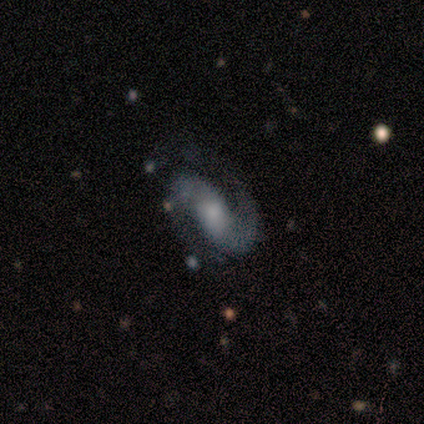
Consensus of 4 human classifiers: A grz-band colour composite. It shows a featured or disk galaxy (100%) with a weak bar (75%), 2 (100%) medium (67%) spiral arms (75%) and a small central bulge (75%). Merging: none (50%).